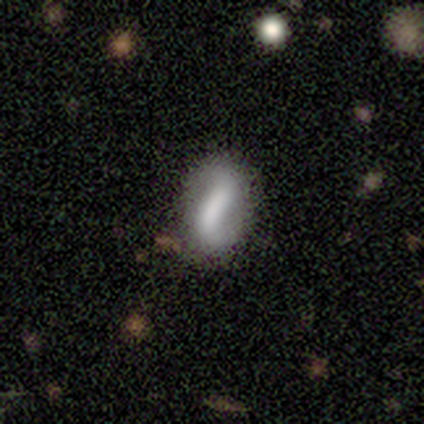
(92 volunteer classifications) smooth_or_featured: smooth (p=0.62) [alt: featured or disk p=0.35]
how_rounded: in between (p=0.88) [alt: cigar-shaped p=0.09]
merging: none (p=0.79) [alt: minor disturbance p=0.17]